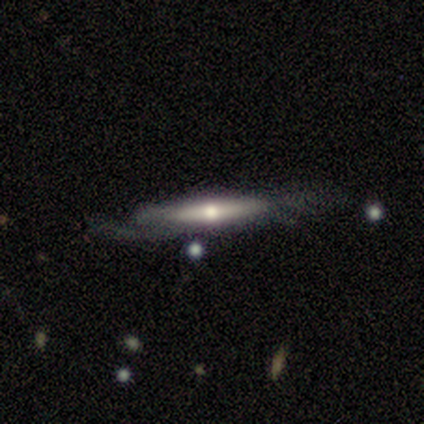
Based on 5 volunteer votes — Overall: featured or disk (80%). Edge-on disk: yes (100%). Edge-on bulge: rounded (100%). Merging: none (40%, tied with minor disturbance).